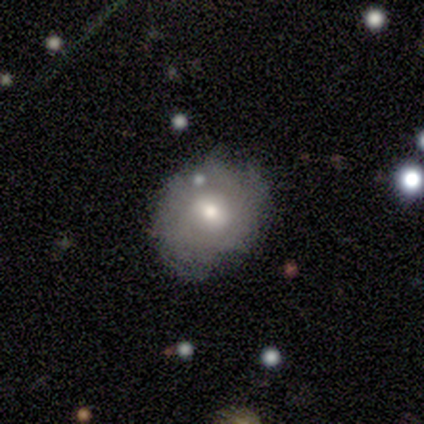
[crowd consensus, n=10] A smooth galaxy with no disk features (50%, tied with featured or disk) that is round (80%). Merging: none (40%).